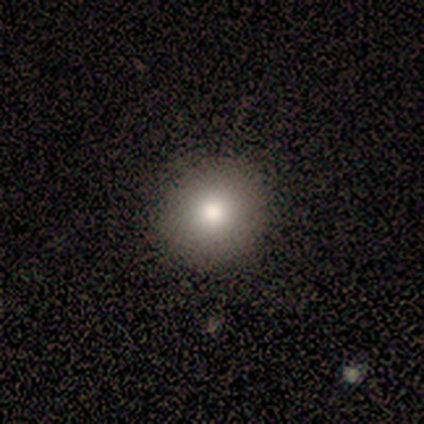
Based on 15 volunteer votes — smooth-or-featured: smooth: 87% | star or artifact: 13% | featured or disk: 0%
  how-rounded: round: 100% | in between: 0% | cigar-shaped: 0%
  merging: none: 92% | minor disturbance: 8% | major disturbance: 0% | merger: 0%